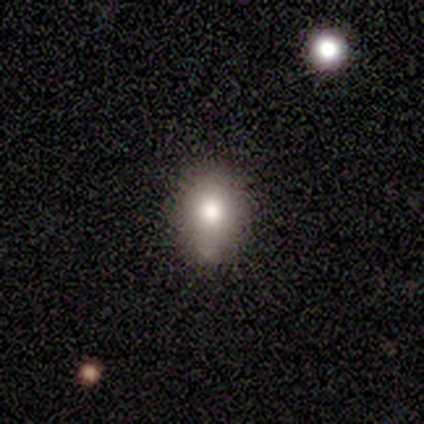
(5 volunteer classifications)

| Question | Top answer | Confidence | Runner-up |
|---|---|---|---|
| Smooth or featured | smooth | 100% | — |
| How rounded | round | 60% | in between (40%) |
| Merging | none | 60% | minor disturbance (40%) |